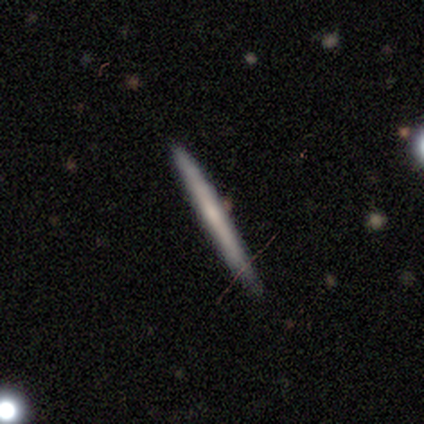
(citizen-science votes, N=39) Overall: featured or disk (54%; smooth 46%). Edge-on disk: yes (90%). Edge-on bulge: none (79%). Merging: none (95%).